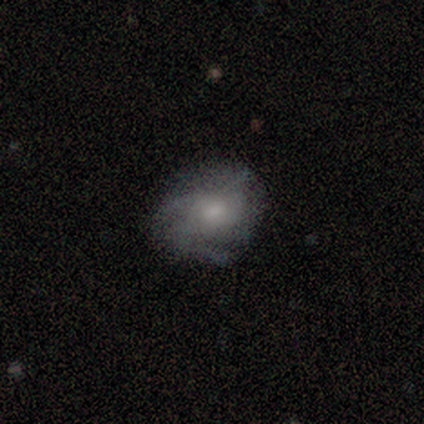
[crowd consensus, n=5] smooth 60%, featured or disk 40%, star or artifact 0%. Down the decision tree: how rounded — round (100%); merging — none (60%).